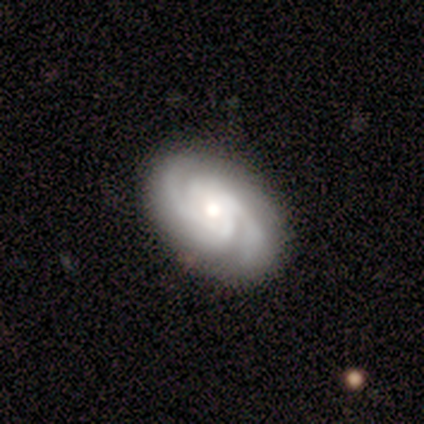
Smooth or featured?
  - featured or disk: 89% *
  - smooth: 8%
  - star or artifact: 3%
Edge-on disk?
  - no: 97% *
  - yes: 3%
Bar?
  - no: 70% *
  - strong: 15%
  - weak: 15%
Spiral arms?
  - yes: 97% *
  - no: 3%
Spiral winding?
  - tight: 62% *
  - medium: 28%
  - loose: 9%
Spiral arm count?
  - 2: 59% *
  - 3: 16%
  - can't tell: 12%
  - 4: 6%
  - more than 4: 6%
  - 1: 0%
Bulge size?
  - moderate: 55% *
  - small: 30%
  - large: 12%
  - dominant: 3%
  - none: 0%
Merging?
  - none: 97% *
  - minor disturbance: 3%
  - major disturbance: 0%
  - merger: 0%